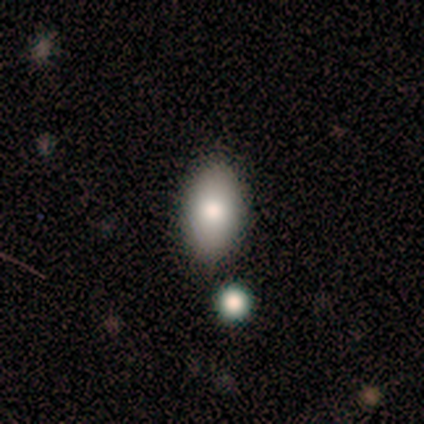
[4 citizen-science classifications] Q: Smooth or featured?
A: smooth (100%)
Q: How rounded?
A: in between (100%)
Q: Merging?
A: none (75%); runner-up: merger (25%)